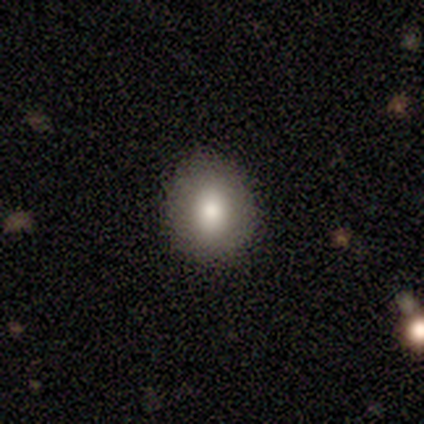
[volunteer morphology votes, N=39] A smooth galaxy with no disk features (74%) that is round (55%). Merging: none (86%).